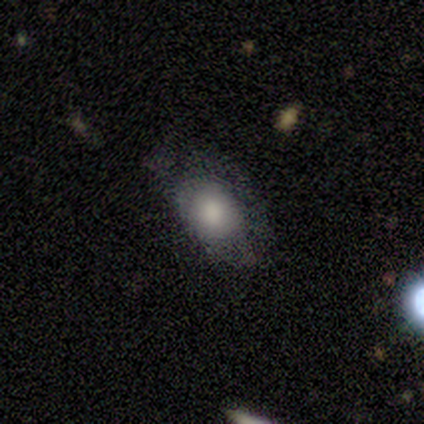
smooth_or_featured: smooth (p=0.75) [alt: featured or disk p=0.25]
how_rounded: in between (p=1.00)
merging: minor disturbance (p=0.75) [alt: major disturbance p=0.25]